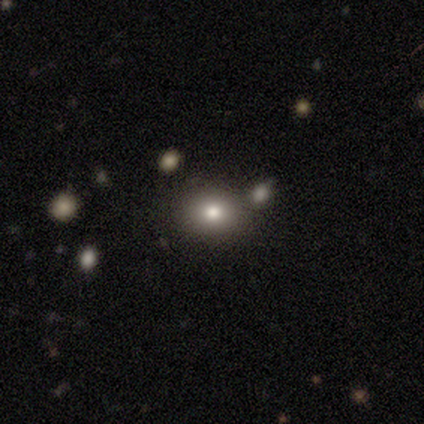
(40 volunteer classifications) Morphology: type=smooth (75%); roundness=in between (53%); merging=none (50%).